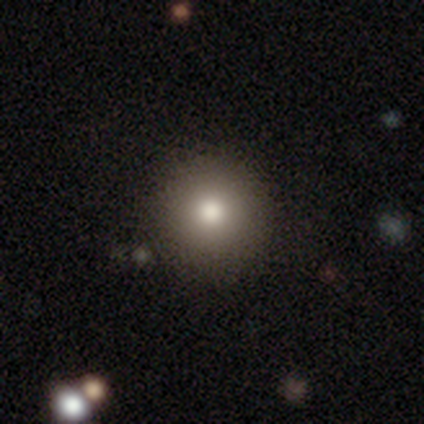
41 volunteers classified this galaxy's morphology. smooth-or-featured: smooth: 80% | featured or disk: 10% | star or artifact: 10%
  how-rounded: round: 97% | cigar-shaped: 3% | in between: 0%
  merging: none: 84% | minor disturbance: 8% | merger: 8% | major disturbance: 0%